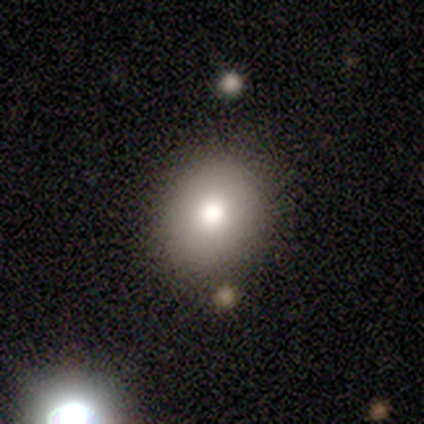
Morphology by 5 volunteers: This appears to be a smooth galaxy with no disk features (80%) that is round (50%, tied with in between). Merging: none (75%).